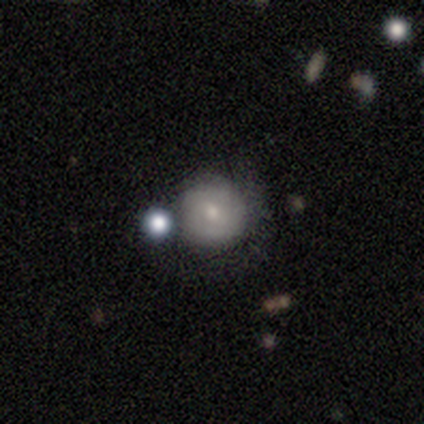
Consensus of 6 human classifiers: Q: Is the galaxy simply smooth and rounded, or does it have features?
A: smooth — 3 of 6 (50%, tied with featured or disk).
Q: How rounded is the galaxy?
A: round — 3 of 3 (100%).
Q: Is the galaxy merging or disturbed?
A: none — 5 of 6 (83%).